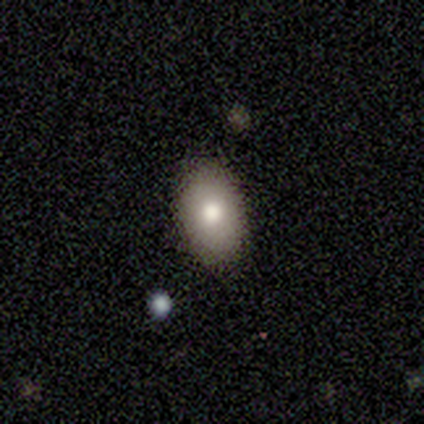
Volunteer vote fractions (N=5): Volunteers were most divided on "smooth or featured": smooth: 80%, star or artifact: 20%, featured or disk: 0%. More confident: how rounded — in between (100%); merging — none (100%).